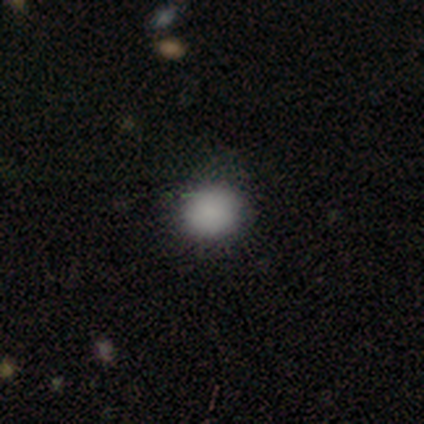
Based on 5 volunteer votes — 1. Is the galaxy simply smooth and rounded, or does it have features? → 100% smooth, 0% featured or disk, 0% star or artifact.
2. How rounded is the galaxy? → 60% round, 40% in between, 0% cigar-shaped.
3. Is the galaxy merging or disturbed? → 80% none, 20% minor disturbance, 0% major disturbance, 0% merger.